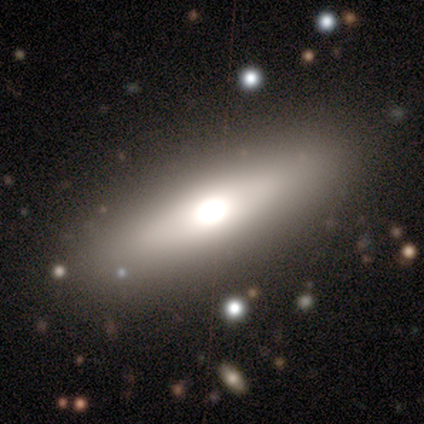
This appears to be a smooth galaxy with no disk features (76%) that is in between round and cigar-shaped (55%). Merging: none (89%).